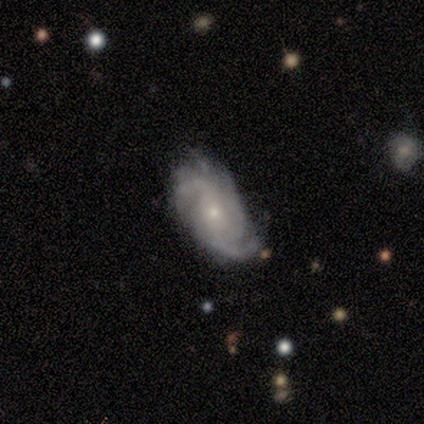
This is clearly a featured or disk galaxy (100%). It is clearly not viewed edge-on (100%). Bar: likely no (67%). Spiral arm pattern: clearly yes (83%). Spiral arm count: likely 2 (60%). Spiral winding: likely medium (60%). Central bulge: likely small (67%). Merging: likely minor disturbance (67%).